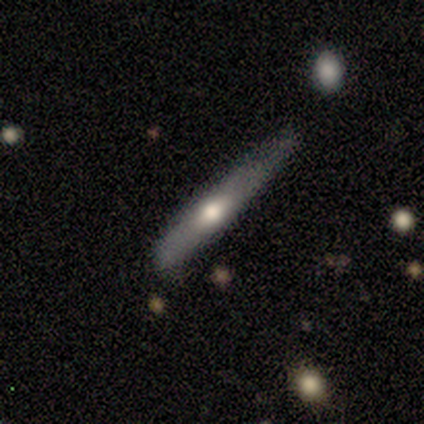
smooth_or_featured: featured or disk (p=0.80) [alt: smooth p=0.20]
disk_edge_on: yes (p=1.00)
edge_on_bulge: rounded (p=1.00)
merging: none (p=0.60) [alt: minor disturbance p=0.40]